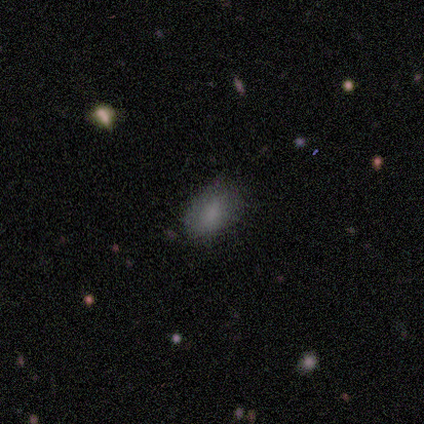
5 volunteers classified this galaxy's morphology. Q: Smooth or featured?
A: smooth (80%); runner-up: star or artifact (20%)
Q: How rounded?
A: in between (100%)
Q: Merging?
A: none (100%)